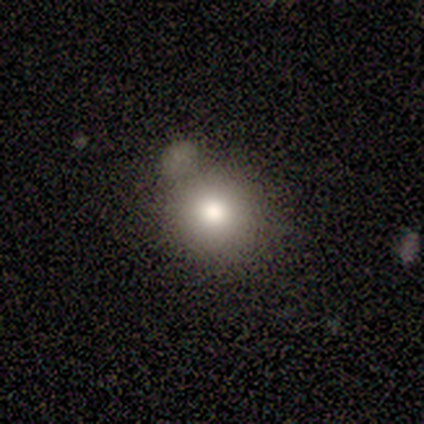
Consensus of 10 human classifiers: smooth_or_featured: smooth (p=0.90) [alt: featured or disk p=0.10]
how_rounded: round (p=0.89) [alt: in between p=0.11]
merging: none (p=0.50) [alt: minor disturbance p=0.30]